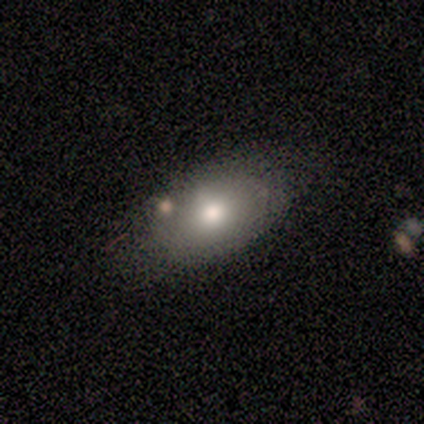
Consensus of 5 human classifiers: Volunteers were most divided on "smooth or featured": smooth: 60%, featured or disk: 20%, star or artifact: 20%. More confident: how rounded — in between (100%); merging — none (75%).